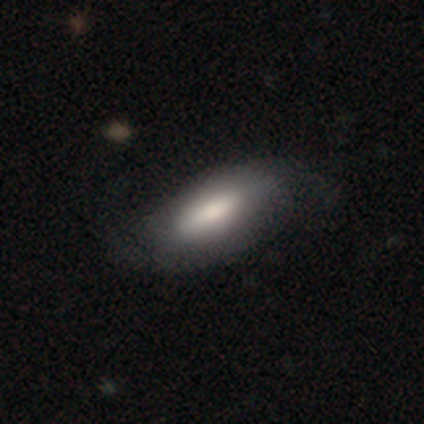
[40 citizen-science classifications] Smooth or featured?
  - smooth: 62% *
  - featured or disk: 35%
  - star or artifact: 2%
How rounded?
  - in between: 88% *
  - cigar-shaped: 12%
  - round: 0%
Merging?
  - none: 33% *
  - major disturbance: 10%
  - minor disturbance: 8%
  - merger: 3%